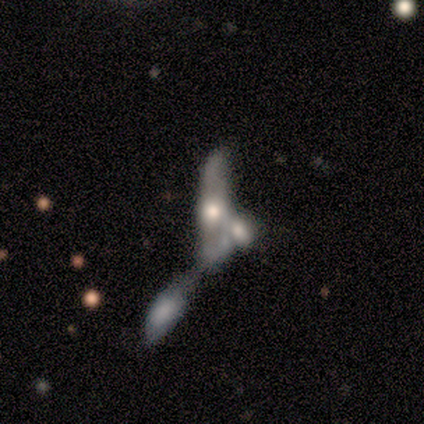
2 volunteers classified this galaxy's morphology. smooth 50% (tied), featured or disk 50% (tied), star or artifact 0%. Down the decision tree: how rounded — in between (100%); merging — merger (100%).